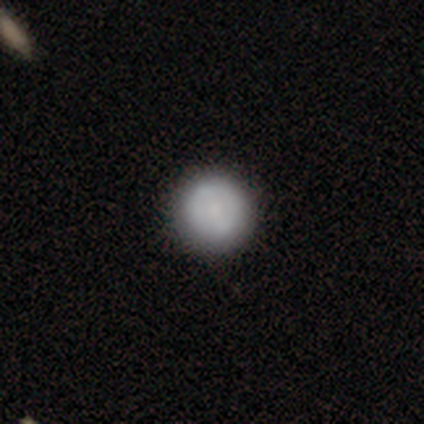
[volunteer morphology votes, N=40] Smooth or featured? smooth (75%)
How rounded? round (100%)
Merging? none (95%)